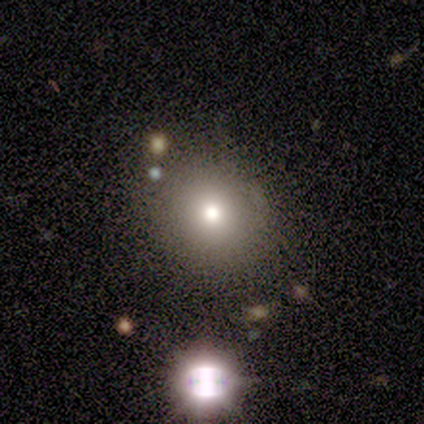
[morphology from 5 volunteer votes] Q: Smooth or featured?
A: smooth (80%); runner-up: star or artifact (20%)
Q: How rounded?
A: round (75%); runner-up: in between (25%)
Q: Merging?
A: none (100%)